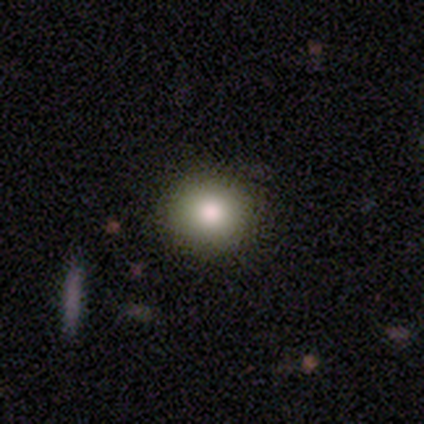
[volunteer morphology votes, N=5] This is clearly a smooth galaxy (100%). How rounded: clearly round (100%). Merging: clearly none (100%).